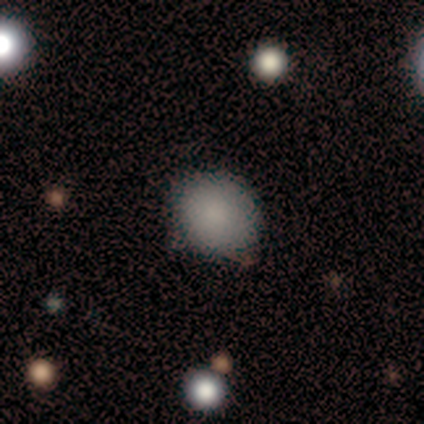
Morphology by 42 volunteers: Smooth or featured?
  - smooth: 88% *
  - featured or disk: 12%
  - star or artifact: 0%
How rounded?
  - round: 70% *
  - in between: 30%
  - cigar-shaped: 0%
Merging?
  - none: 90% *
  - minor disturbance: 10%
  - major disturbance: 0%
  - merger: 0%